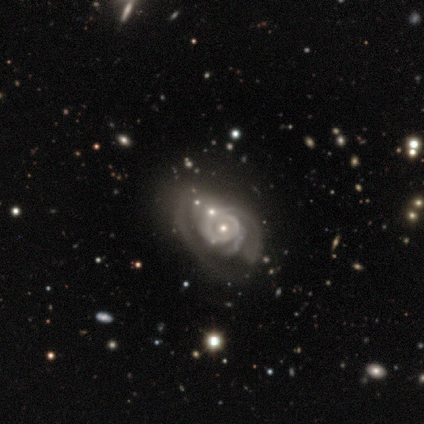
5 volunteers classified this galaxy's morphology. type=featured or disk (100%); edge-on=no (100%); bar=no (100%); spiral arms=yes (100%); winding=medium (60%); arm count=can't tell (80%); bulge=small (60%); merging=major disturbance (40%).